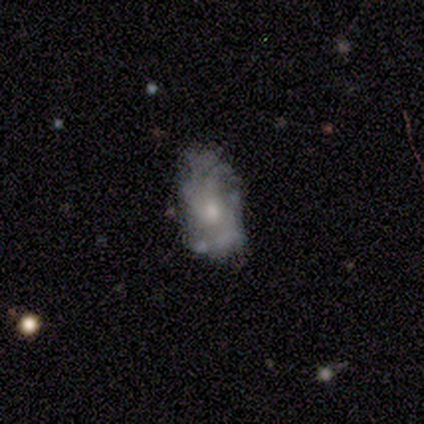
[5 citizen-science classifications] Smooth or featured? 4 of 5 (80%) said featured or disk. Edge-on disk? 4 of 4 (100%) said no. Bar? 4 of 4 (100%) said no. Spiral arms? 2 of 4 (50%, tied with no) said yes. Spiral winding? 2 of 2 (100%) said tight. Spiral arm count? 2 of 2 (100%) said can't tell. Bulge size? 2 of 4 (50%) said moderate. Merging? 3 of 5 (60%) said minor disturbance.